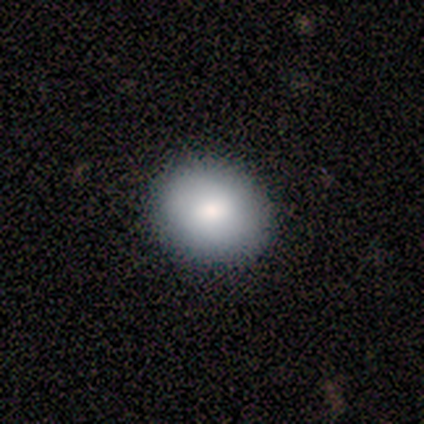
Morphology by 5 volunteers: This is clearly a smooth galaxy (100%). How rounded: likely round (60%). Merging: clearly none (80%).